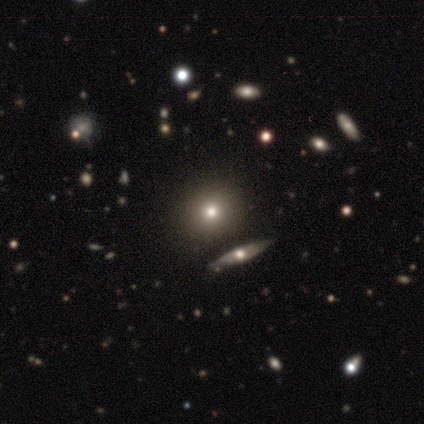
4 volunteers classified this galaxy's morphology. smooth_or_featured: smooth (p=1.00)
how_rounded: round (p=1.00)
merging: none (p=1.00)